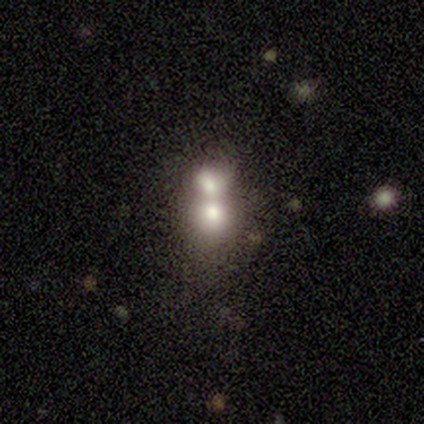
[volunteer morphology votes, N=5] type=smooth (100%); roundness=round (60%); merging=merger (80%).